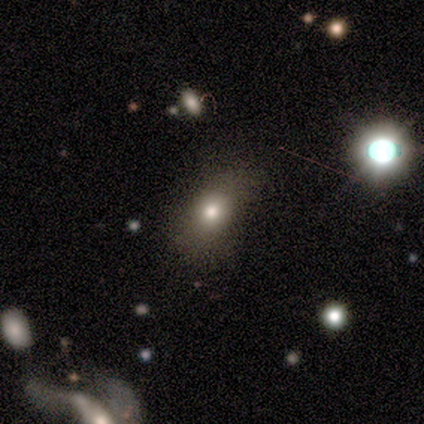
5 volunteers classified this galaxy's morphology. Smooth or featured? 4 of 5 (80%) said smooth. How rounded? 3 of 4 (75%) said in between. Merging? 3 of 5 (60%) said minor disturbance.